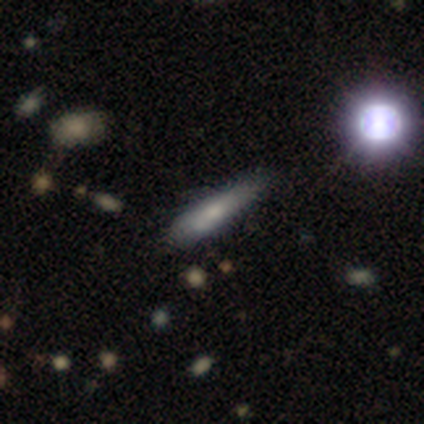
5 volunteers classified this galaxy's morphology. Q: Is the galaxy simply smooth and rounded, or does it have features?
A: smooth — 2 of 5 (40%, tied with featured or disk).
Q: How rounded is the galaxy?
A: cigar-shaped — 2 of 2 (100%).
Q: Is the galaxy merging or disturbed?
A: none — 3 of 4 (75%).